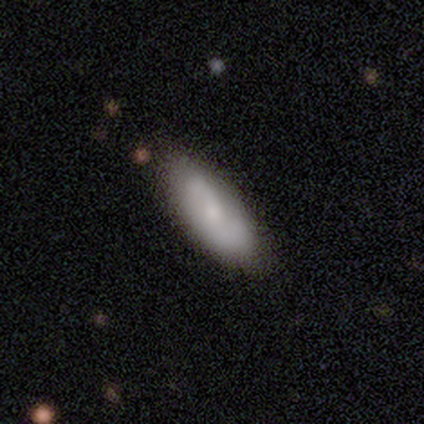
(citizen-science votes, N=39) Smooth or featured? 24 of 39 (62%) said featured or disk. Edge-on disk? 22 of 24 (92%) said no. Bar? 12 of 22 (55%) said no. Spiral arms? 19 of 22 (86%) said yes. Spiral winding? 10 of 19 (53%) said loose. Spiral arm count? 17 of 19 (89%) said 2. Bulge size? 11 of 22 (50%) said small. Merging? 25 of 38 (66%) said none.